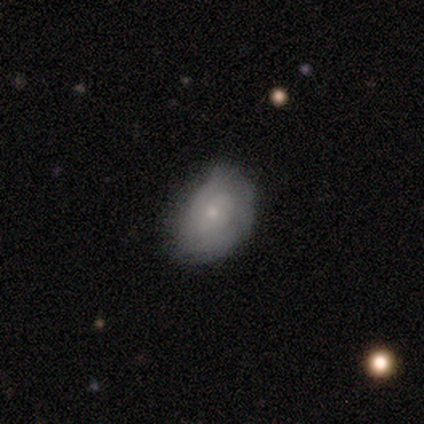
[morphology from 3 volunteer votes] Volunteers were most divided on "smooth or featured": smooth: 67%, featured or disk: 33%, star or artifact: 0%. More confident: how rounded — in between (100%); merging — none (67%).